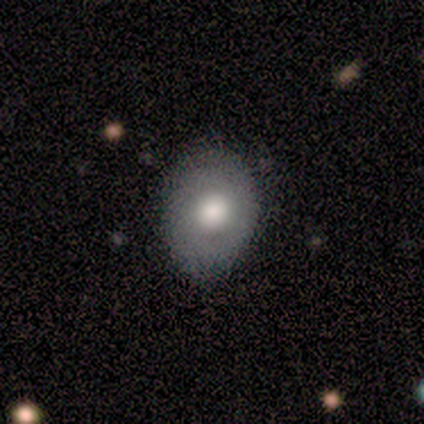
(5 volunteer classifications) Q: Smooth or featured?
A: smooth (60%); runner-up: featured or disk (20%)
Q: How rounded?
A: in between (100%)
Q: Merging?
A: none (75%); runner-up: minor disturbance (25%)